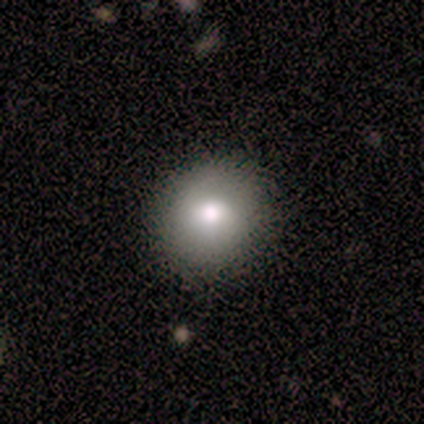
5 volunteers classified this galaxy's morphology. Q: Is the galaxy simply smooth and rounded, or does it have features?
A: smooth — 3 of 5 (60%).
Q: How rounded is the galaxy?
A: round — 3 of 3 (100%).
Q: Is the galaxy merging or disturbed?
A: none — 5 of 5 (100%).